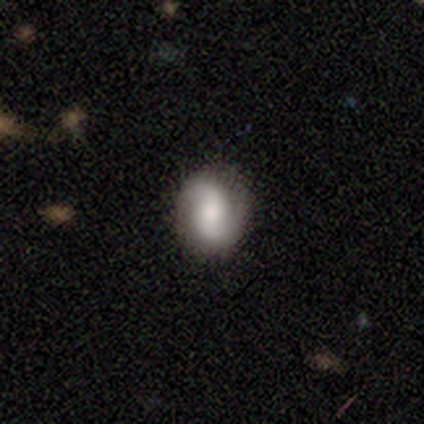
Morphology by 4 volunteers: smooth-or-featured: smooth: 50% (tied) | featured or disk: 50% (tied) | star or artifact: 0%
  how-rounded: in between: 50% (tied) | cigar-shaped: 50% (tied) | round: 0%
  merging: none: 50% (tied) | minor disturbance: 50% (tied) | major disturbance: 0% | merger: 0%